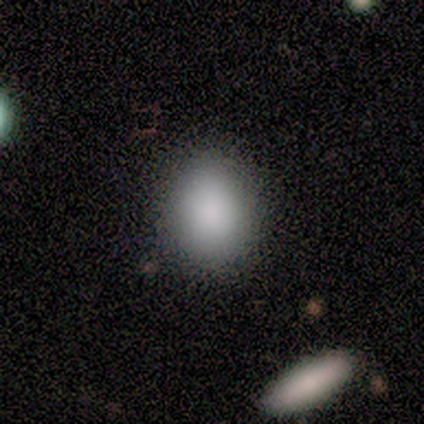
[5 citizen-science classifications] Smooth or featured? 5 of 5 (100%) said smooth. How rounded? 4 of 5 (80%) said in between. Merging? 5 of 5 (100%) said none.